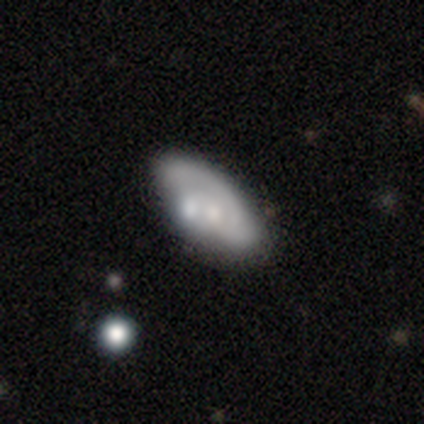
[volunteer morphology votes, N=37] smooth_or_featured: smooth (p=0.54) [alt: featured or disk p=0.46]
how_rounded: in between (p=0.95) [alt: round p=0.05]
merging: none (p=0.43) [alt: merger p=0.32]